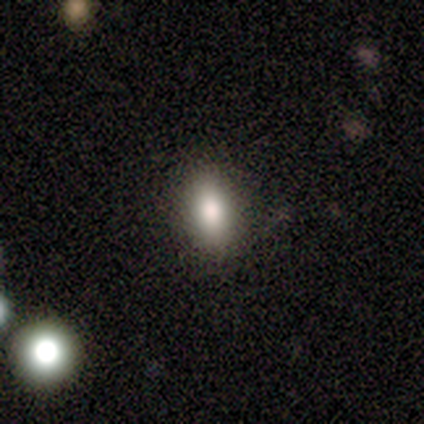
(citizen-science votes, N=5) This appears to be a smooth galaxy with no disk features (100%) that is in between round and cigar-shaped (100%). Merging: none (100%).